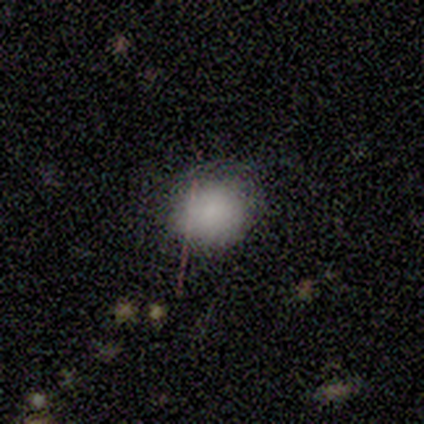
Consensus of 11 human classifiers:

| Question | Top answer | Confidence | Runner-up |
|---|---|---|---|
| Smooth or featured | smooth | 82% | featured or disk (9%) |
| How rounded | round | 67% | in between (33%) |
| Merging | minor disturbance | 50% | none (40%) |